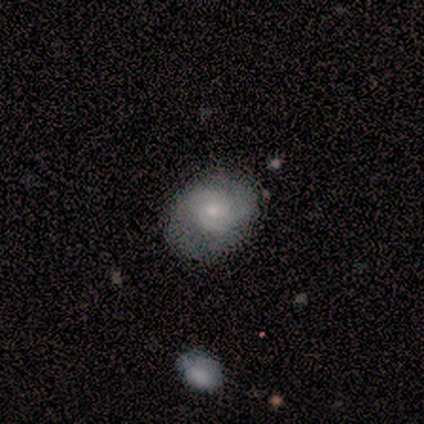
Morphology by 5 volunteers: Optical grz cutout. It shows a featured or disk galaxy (60%) with no bar (100%), 2 (100%) medium (100%) spiral arms (100%) and a moderate central bulge (67%). Merging: none (100%).